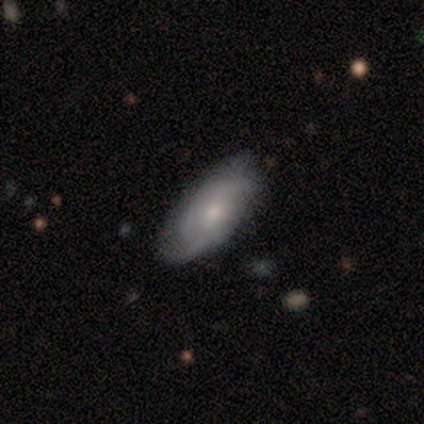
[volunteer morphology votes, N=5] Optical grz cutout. It shows a featured or disk galaxy (100%) with no bar (60%), 2 (60%) tight (60%) spiral arms (100%) and a small central bulge (60%). Merging: none (80%).